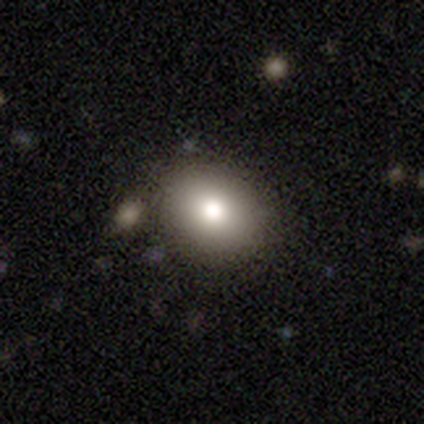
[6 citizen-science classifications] This appears to be a smooth galaxy with no disk features (83%) that is in between round and cigar-shaped (60%). Merging: none (80%).